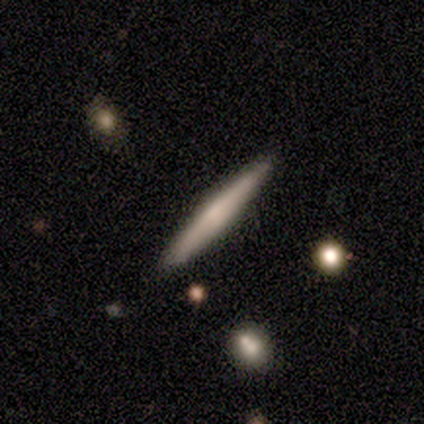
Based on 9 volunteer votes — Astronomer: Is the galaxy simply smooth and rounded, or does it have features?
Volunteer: smooth — 44%, tied with featured or disk at 44%.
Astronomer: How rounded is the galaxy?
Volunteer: cigar-shaped — 100%.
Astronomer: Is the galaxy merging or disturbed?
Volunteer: none — 100%.